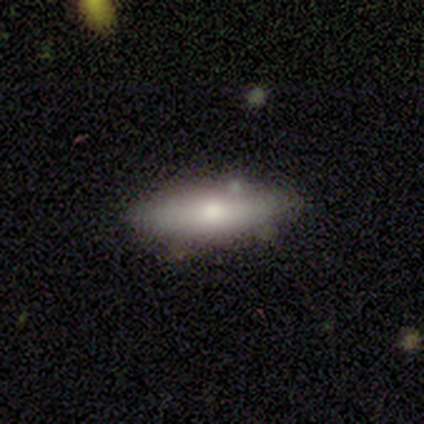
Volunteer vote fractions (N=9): A smooth galaxy with no disk features (44%, tied with featured or disk) that is cigar-shaped (75%).

Vote fractions:
- Smooth or featured? smooth: 44% (tied) / featured or disk: 44% (tied) / star or artifact: 11%
- How rounded? cigar-shaped: 75% / in between: 25% / round: 0%
- Merging? none: 100% / minor disturbance: 0% / major disturbance: 0% / merger: 0%